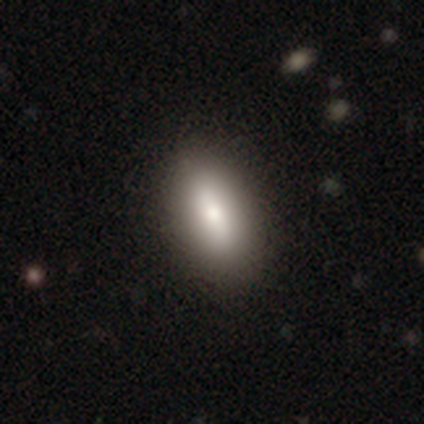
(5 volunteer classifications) Morphology: type=smooth (100%); roundness=in between (100%); merging=none (100%).